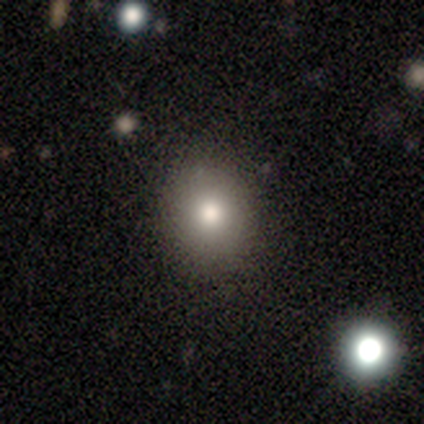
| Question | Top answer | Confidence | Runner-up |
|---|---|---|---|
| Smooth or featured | smooth | 80% | star or artifact (15%) |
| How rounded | round | 73% | in between (27%) |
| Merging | none | 97% | minor disturbance (3%) |